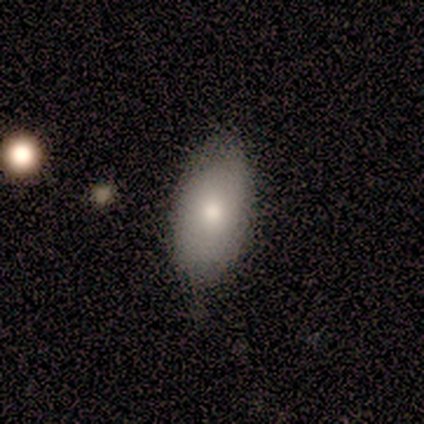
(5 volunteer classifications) Smooth or featured? smooth (100%)
How rounded? in between (80%)
Merging? none (80%)